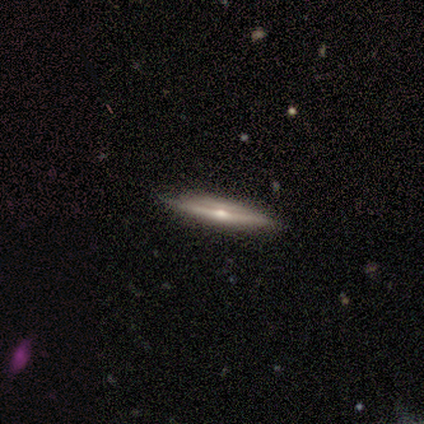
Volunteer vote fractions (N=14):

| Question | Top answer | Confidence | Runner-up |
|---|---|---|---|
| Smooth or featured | featured or disk | 64% | smooth (29%) |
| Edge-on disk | yes | 100% | — |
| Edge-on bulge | rounded | 89% | none (11%) |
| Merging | none | 100% | — |